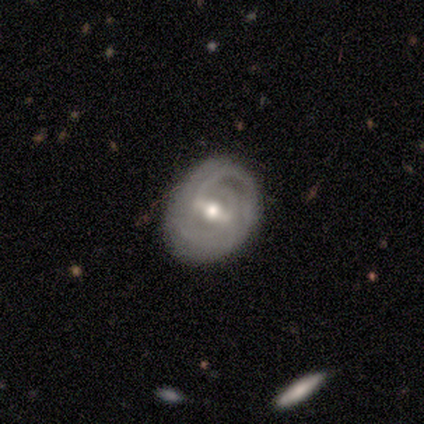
This appears to be a featured or disk galaxy (75%) with a weak bar (67%), 2 (67%) medium (67%) spiral arms (100%) and a moderate central bulge (100%). Merging: none (100%).